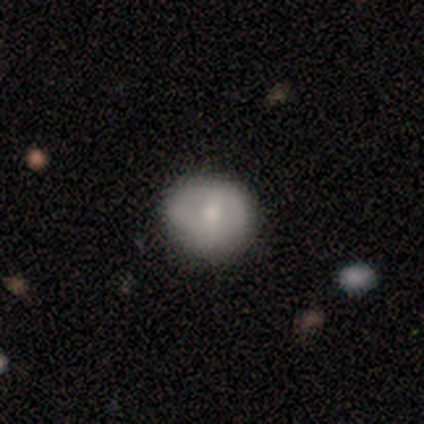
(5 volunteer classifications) Overall: smooth (100%). How rounded: round (80%). Merging: none (80%).